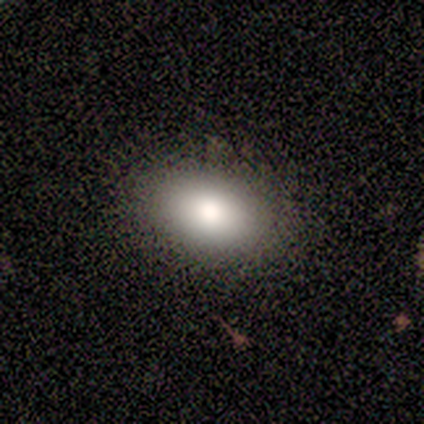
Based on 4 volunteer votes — smooth_or_featured: smooth (p=0.50) [alt: featured or disk p=0.25]
how_rounded: in between (p=1.00)
merging: none (p=1.00)